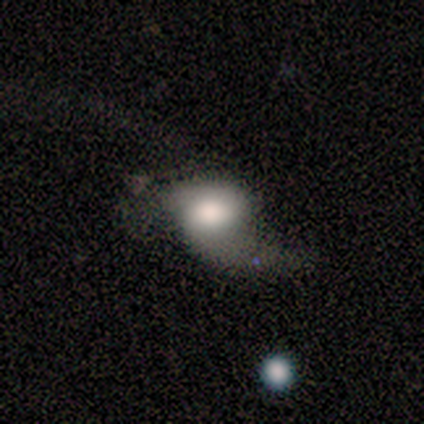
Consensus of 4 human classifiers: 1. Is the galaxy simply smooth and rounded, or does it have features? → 75% featured or disk, 25% smooth, 0% star or artifact.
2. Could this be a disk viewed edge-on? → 100% no, 0% yes.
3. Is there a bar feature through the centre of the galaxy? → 33% strong (tied), 33% weak (tied), 33% no (tied).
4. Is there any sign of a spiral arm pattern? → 67% no, 33% yes.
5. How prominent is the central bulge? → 33% large (tied), 33% moderate (tied), 33% small (tied), 0% dominant, 0% none.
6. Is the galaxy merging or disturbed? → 50% minor disturbance, 25% major disturbance, 25% merger, 0% none.